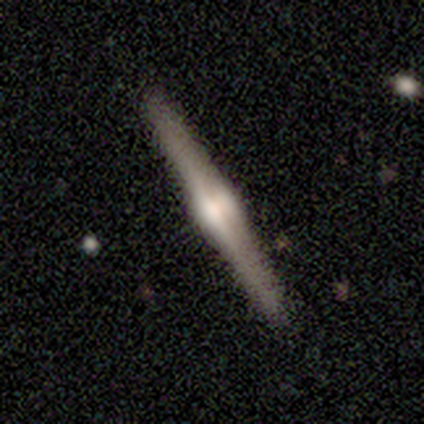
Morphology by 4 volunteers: smooth_or_featured: featured or disk (p=1.00)
disk_edge_on: yes (p=1.00)
edge_on_bulge: rounded (p=1.00)
merging: none (p=1.00)